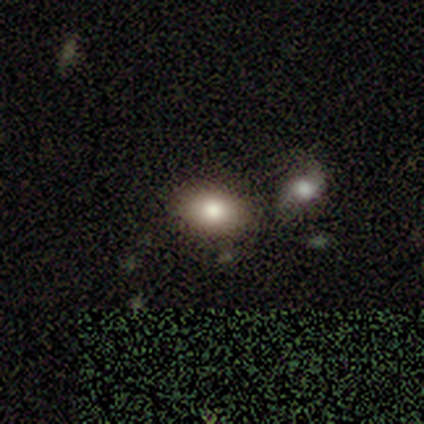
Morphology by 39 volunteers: Smooth or featured?
  - smooth: 82% *
  - star or artifact: 13%
  - featured or disk: 5%
How rounded?
  - in between: 88% *
  - round: 12%
  - cigar-shaped: 0%
Merging?
  - none: 82% *
  - merger: 15%
  - major disturbance: 3%
  - minor disturbance: 0%